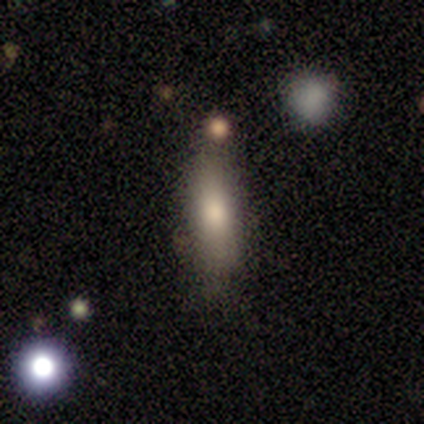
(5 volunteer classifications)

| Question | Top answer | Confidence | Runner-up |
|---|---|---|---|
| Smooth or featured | smooth | 80% | featured or disk (20%) |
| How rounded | cigar-shaped | 75% | in between (25%) |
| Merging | none | 100% | — |